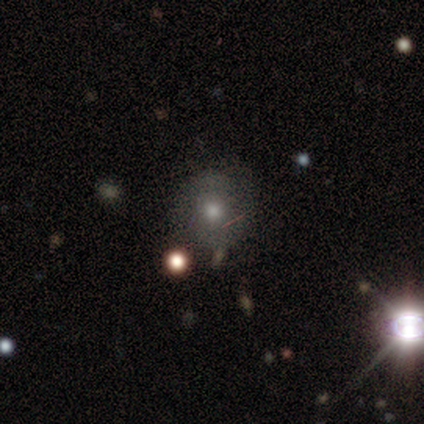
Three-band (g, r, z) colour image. It shows a smooth galaxy with no disk features (51%) that is round (95%). Merging: none (74%).